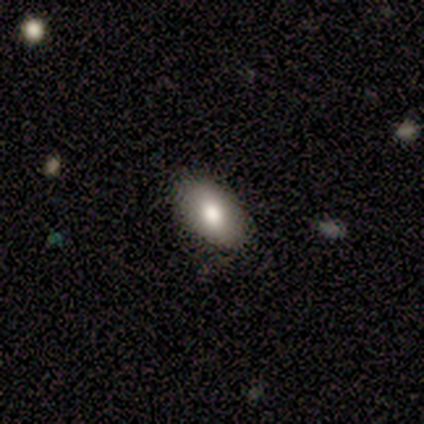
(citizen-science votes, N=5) Q: Smooth or featured?
A: smooth (80%); runner-up: featured or disk (20%)
Q: How rounded?
A: in between (100%)
Q: Merging?
A: none (80%); runner-up: minor disturbance (20%)